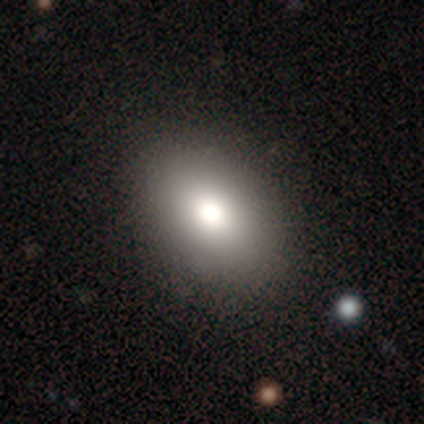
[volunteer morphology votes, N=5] This is clearly a smooth galaxy (80%). How rounded: likely in between (75%). Merging: clearly none (80%).